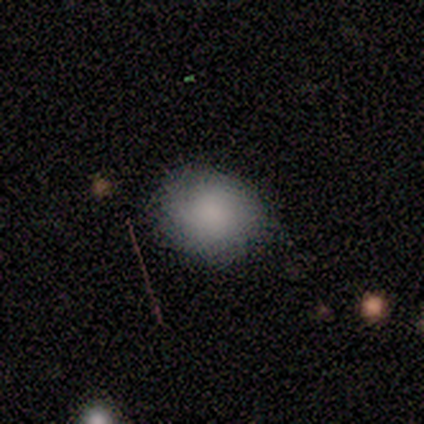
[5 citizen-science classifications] Smooth or featured: smooth — 100%
How rounded: round — 100%
Merging: none — 60% (minor disturbance — 40%)